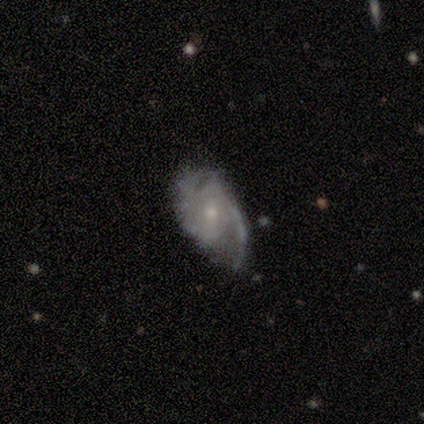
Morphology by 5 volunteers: This appears to be a featured or disk galaxy (100%) with a weak bar (60%), 2 (100%) tight (40%, tied with medium) spiral arms (100%) and a small central bulge (80%). Merging: none (80%).